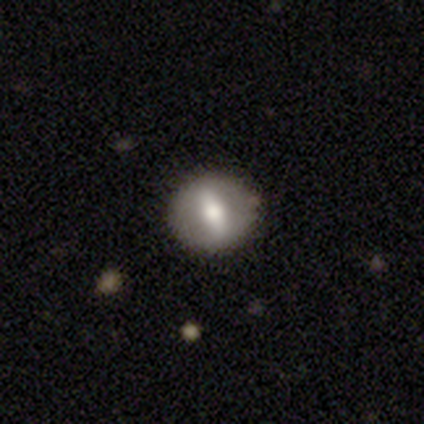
A smooth galaxy with no disk features (50%) that is round (85%).

Vote fractions:
- Smooth or featured? smooth: 50% / featured or disk: 48% / star or artifact: 2%
- How rounded? round: 85% / in between: 15% / cigar-shaped: 0%
- Merging? none: 90% / minor disturbance: 8% / merger: 3% / major disturbance: 0%